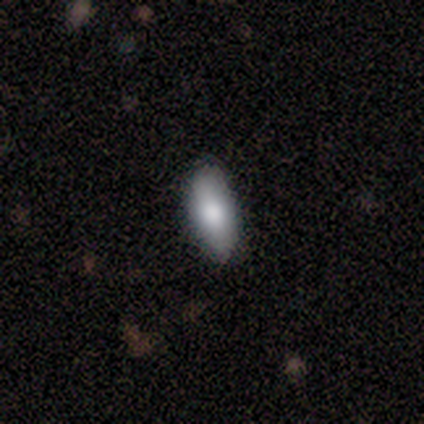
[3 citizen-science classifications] Volunteers were most divided on "merging": none: 67%, minor disturbance: 33%, major disturbance: 0%, merger: 0%. More confident: smooth or featured — smooth (100%); how rounded — in between (100%).